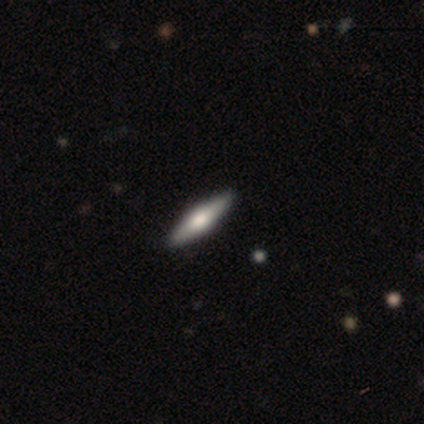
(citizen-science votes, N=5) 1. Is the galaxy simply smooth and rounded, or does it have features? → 80% featured or disk, 20% star or artifact, 0% smooth.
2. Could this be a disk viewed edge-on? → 100% yes, 0% no.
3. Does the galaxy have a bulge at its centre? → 75% rounded, 25% boxy, 0% none.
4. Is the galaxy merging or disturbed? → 100% none, 0% minor disturbance, 0% major disturbance, 0% merger.